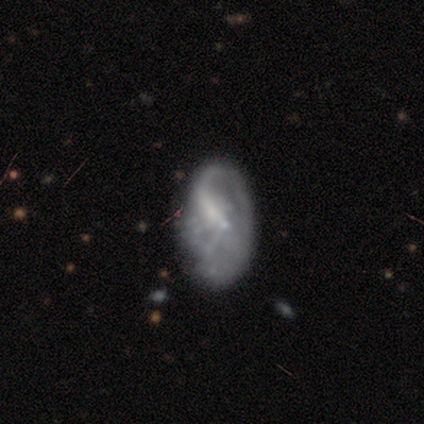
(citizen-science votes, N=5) smooth_or_featured: smooth (p=0.40) [tied with: featured or disk p=0.40]
how_rounded: in between (p=1.00)
merging: none (p=0.75) [alt: major disturbance p=0.25]